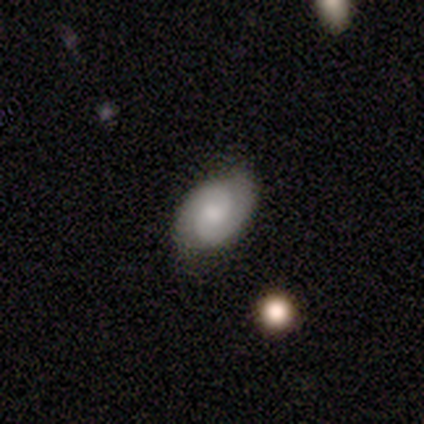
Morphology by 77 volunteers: Smooth or featured: featured or disk — 65% (smooth — 29%)
Edge-on disk: no — 100%
Bar: no — 66% (weak — 32%)
Spiral arms: yes — 94% (no — 6%)
Spiral winding: tight — 53% (medium — 38%)
Spiral arm count: 2 — 94% (can't tell — 6%)
Bulge size: moderate — 38% (small — 36%)
Merging: none — 51% (minor disturbance — 4%)